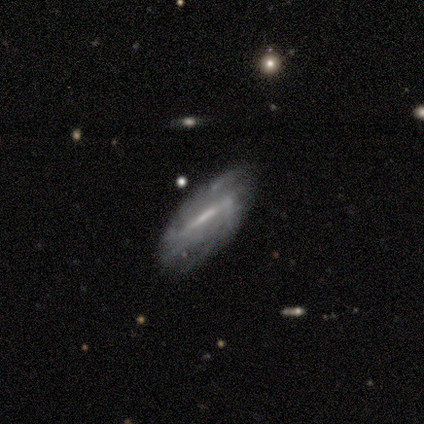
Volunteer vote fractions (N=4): Smooth or featured?
  - featured or disk: 75% *
  - smooth: 25%
  - star or artifact: 0%
Edge-on disk?
  - yes: 67% *
  - no: 33%
Edge-on bulge?
  - none: 50% * (tied)
  - rounded: 50% * (tied)
  - boxy: 0%
Merging?
  - none: 75% *
  - minor disturbance: 25%
  - major disturbance: 0%
  - merger: 0%